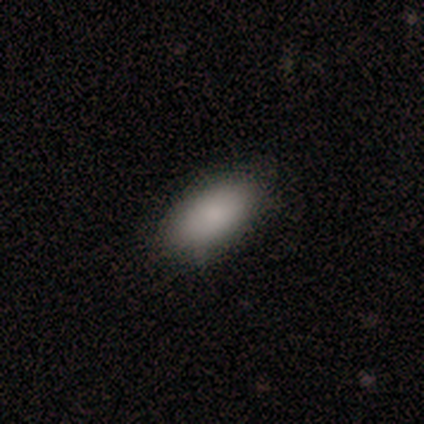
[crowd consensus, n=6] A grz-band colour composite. It shows a smooth galaxy with no disk features (100%) that is in between round and cigar-shaped (100%). Merging: none (100%).